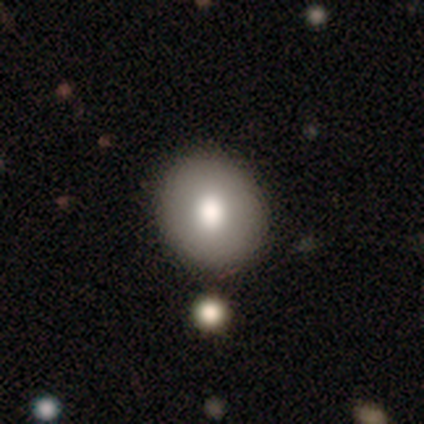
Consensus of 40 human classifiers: Smooth or featured: smooth — 78% (featured or disk — 15%)
How rounded: round — 71% (in between — 29%)
Merging: none — 65% (minor disturbance — 8%)